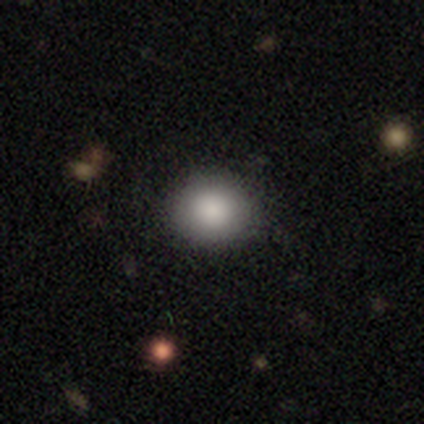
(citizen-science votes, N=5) smooth 60%, featured or disk 20%, star or artifact 20%. Down the decision tree: how rounded — round (67%); merging — none (100%).